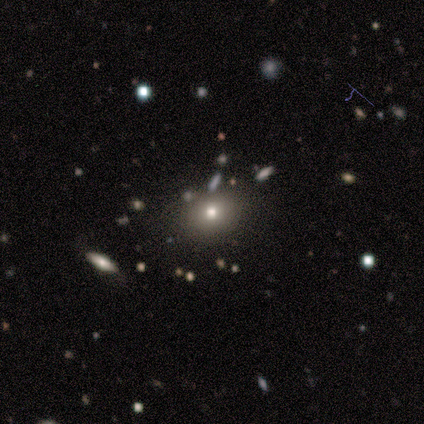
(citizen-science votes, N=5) Smooth or featured? smooth (60%)
How rounded? in between (67%)
Merging? none (100%)